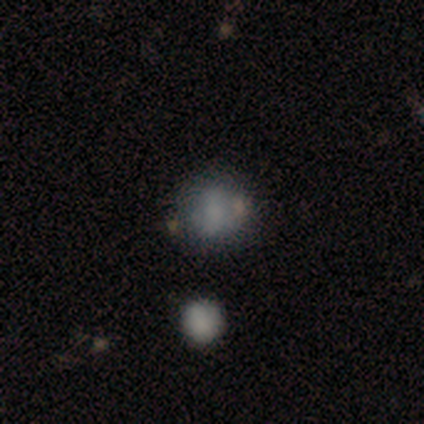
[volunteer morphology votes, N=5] smooth_or_featured: smooth (p=0.60) [alt: featured or disk p=0.40]
how_rounded: round (p=0.67) [alt: in between p=0.33]
merging: none (p=0.60) [alt: minor disturbance p=0.40]